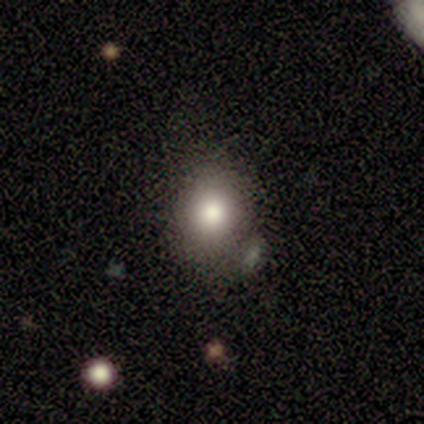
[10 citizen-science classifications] Smooth or featured? 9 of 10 (90%) said smooth. How rounded? 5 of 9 (56%) said round. Merging? 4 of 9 (44%) said none.